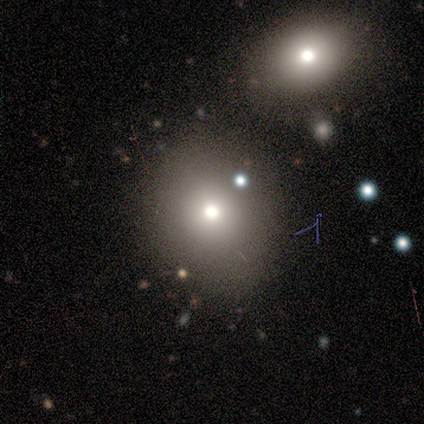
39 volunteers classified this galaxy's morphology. smooth-or-featured: smooth: 72% | featured or disk: 23% | star or artifact: 5%
  how-rounded: round: 54% | in between: 43% | cigar-shaped: 4%
  merging: none: 70% | minor disturbance: 16% | merger: 11% | major disturbance: 3%